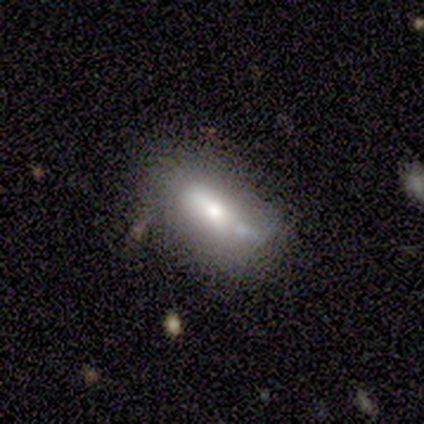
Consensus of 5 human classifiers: A smooth galaxy with no disk features (60%) that is in between round and cigar-shaped (67%). Merging: none (75%).